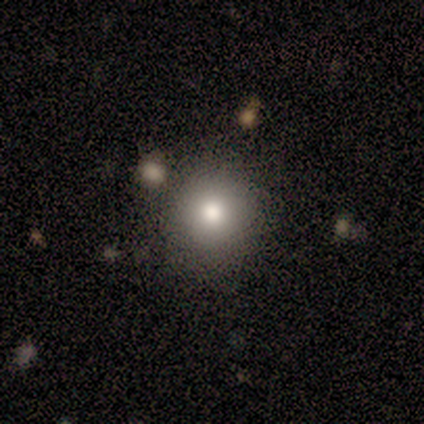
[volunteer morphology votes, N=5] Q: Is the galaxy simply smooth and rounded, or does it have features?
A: smooth — 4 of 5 (80%).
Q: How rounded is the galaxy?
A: round — 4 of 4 (100%).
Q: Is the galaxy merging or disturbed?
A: none — 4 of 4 (100%).